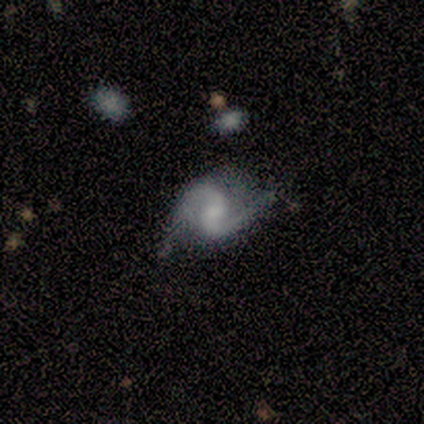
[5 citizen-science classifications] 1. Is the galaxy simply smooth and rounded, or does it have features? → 100% featured or disk, 0% smooth, 0% star or artifact.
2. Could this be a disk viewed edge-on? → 100% no, 0% yes.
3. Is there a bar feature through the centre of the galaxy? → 80% weak, 20% no, 0% strong.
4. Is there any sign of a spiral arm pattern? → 100% yes, 0% no.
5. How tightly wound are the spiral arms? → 60% medium, 40% loose, 0% tight.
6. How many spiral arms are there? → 100% 2, 0% 1, 0% 3, 0% 4, 0% more than 4, 0% can't tell.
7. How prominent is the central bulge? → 60% none, 40% small, 0% dominant, 0% large, 0% moderate.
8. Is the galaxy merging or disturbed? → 100% none, 0% minor disturbance, 0% major disturbance, 0% merger.